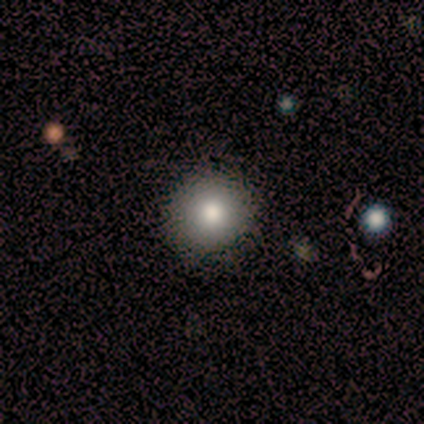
Overall: smooth (80%). How rounded: round (75%). Merging: none (75%).